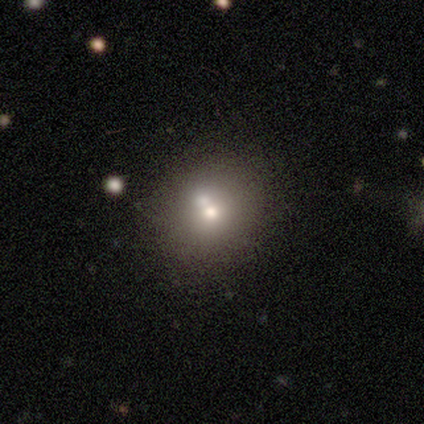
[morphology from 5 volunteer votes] smooth 80%, star or artifact 20%, featured or disk 0%. Down the decision tree: how rounded — round (75%); merging — none (75%).